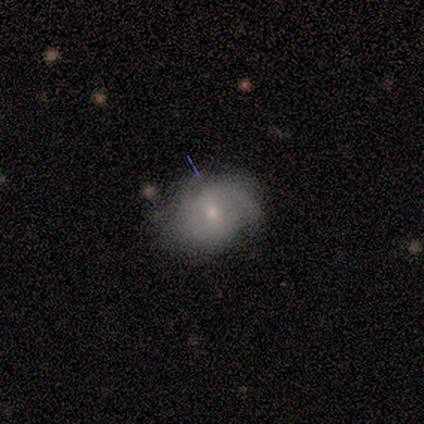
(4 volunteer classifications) This appears to be a featured or disk galaxy (75%) with a strong bar (33%, tied with weak and no), tight (33%, tied with medium and loose) spiral arms (100%) and a dominant central bulge (33%, tied with small and none). Merging: minor disturbance (75%).